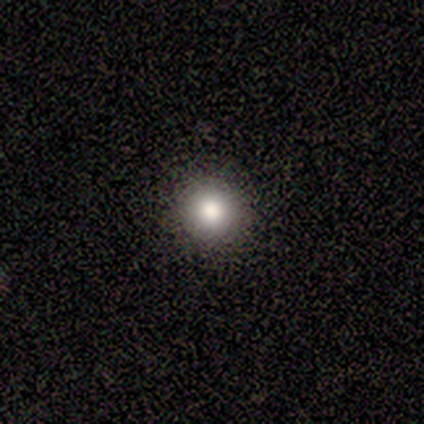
Smooth or featured: smooth — 100%
How rounded: round — 100%
Merging: none — 100%